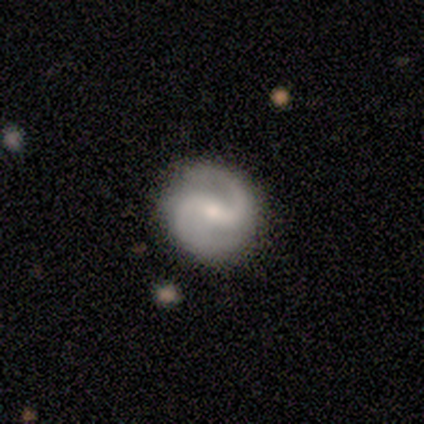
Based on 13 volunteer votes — Morphology: type=featured or disk (85%); edge-on=no (100%); bar=weak (45%); spiral arms=yes (100%); winding=medium (73%); arm count=2 (82%); bulge=small (55%); merging=none (92%).